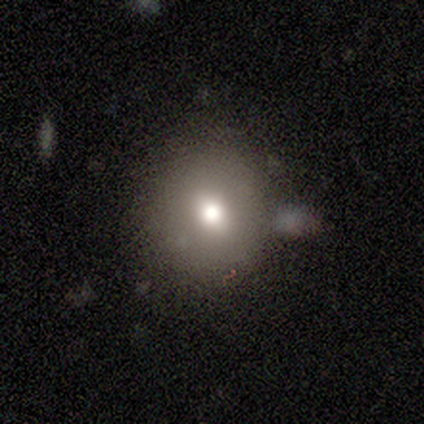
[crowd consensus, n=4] Volunteers were most divided on "smooth or featured": smooth: 50%, featured or disk: 25%, star or artifact: 25%. More confident: how rounded — round (100%); merging — none (100%).